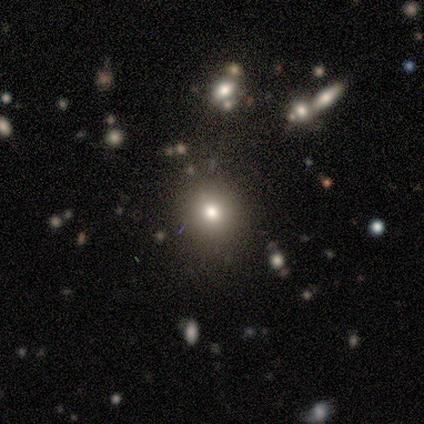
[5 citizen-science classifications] Smooth or featured: smooth — 80% (star or artifact — 20%)
How rounded: round — 75% (in between — 25%)
Merging: none — 100%